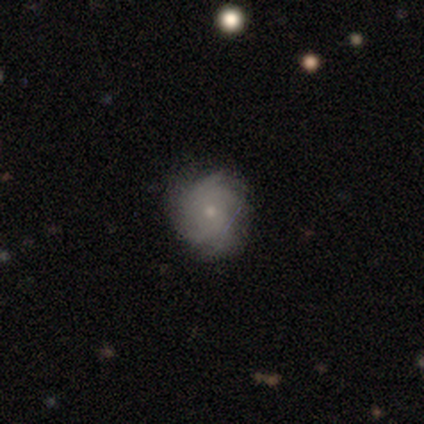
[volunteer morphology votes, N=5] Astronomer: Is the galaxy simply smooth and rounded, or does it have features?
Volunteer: featured or disk — 80%.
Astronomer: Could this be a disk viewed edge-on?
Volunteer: no — 100%.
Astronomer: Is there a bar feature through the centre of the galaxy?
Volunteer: no — 100%.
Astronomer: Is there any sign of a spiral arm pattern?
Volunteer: yes — 100%.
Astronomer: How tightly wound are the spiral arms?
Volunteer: tight — 100%.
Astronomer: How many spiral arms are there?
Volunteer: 4 — 50%.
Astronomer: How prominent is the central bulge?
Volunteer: small — 100%.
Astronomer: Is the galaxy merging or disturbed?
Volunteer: none — 80%.